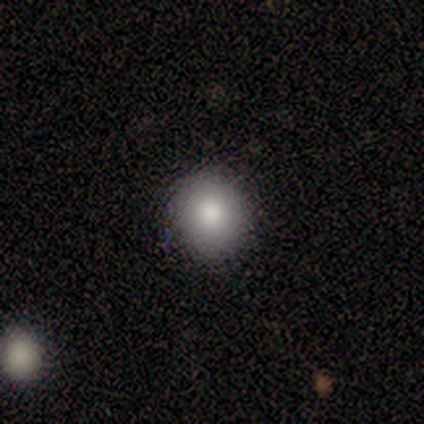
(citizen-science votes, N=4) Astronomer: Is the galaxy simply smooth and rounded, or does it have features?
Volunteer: smooth — 100%.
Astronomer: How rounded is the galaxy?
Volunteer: round — 75%.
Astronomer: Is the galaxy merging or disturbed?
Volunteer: none — 100%.